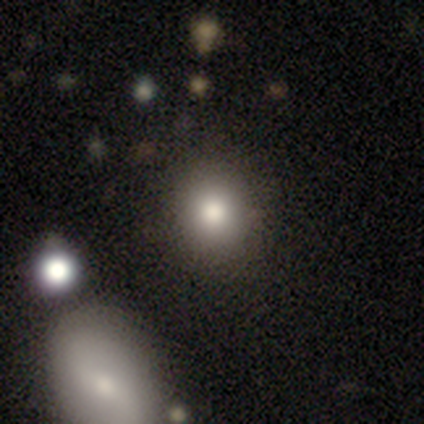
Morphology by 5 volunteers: Consensus on every question: smooth or featured — smooth (100%); how rounded — round (100%); merging — none (100%).